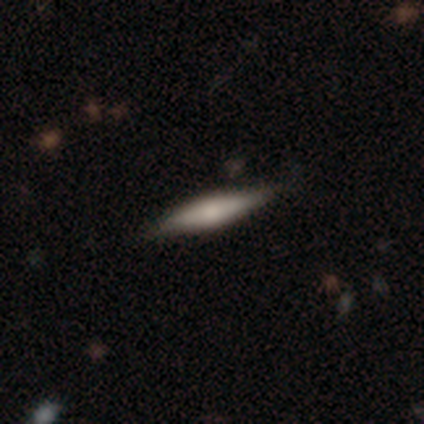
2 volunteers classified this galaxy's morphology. This appears to be a featured or disk galaxy (100%) viewed edge-on (100%) with a rounded central bulge (100%). Merging: none (50%, tied with minor disturbance).